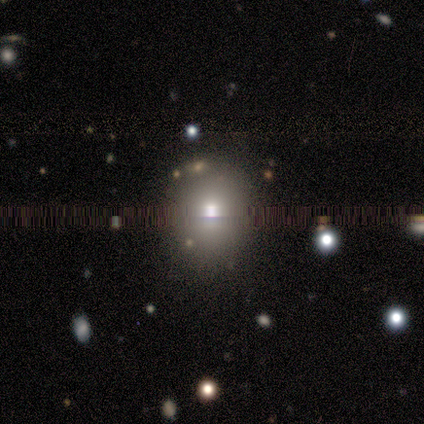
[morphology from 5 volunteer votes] smooth 60%, featured or disk 20%, star or artifact 20%. Down the decision tree: how rounded — round (100%); merging — none (75%).